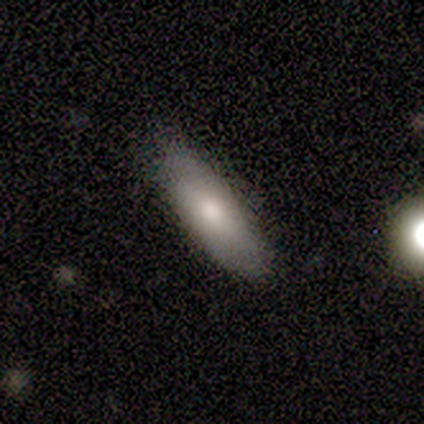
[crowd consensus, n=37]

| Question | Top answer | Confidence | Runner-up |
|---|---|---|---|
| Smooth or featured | smooth | 70% | featured or disk (19%) |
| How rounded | in between | 77% | cigar-shaped (23%) |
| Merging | none | 82% | minor disturbance (18%) |